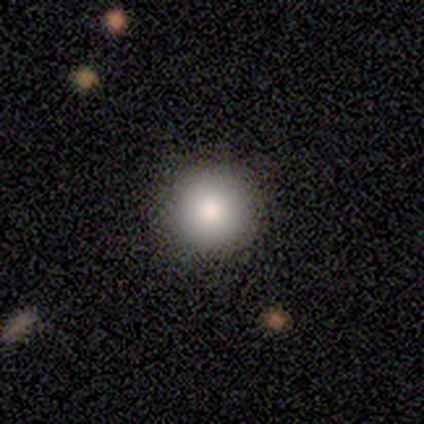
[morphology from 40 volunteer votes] Smooth or featured? 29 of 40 (72%) said smooth. How rounded? 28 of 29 (97%) said round. Merging? 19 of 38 (50%) said none.